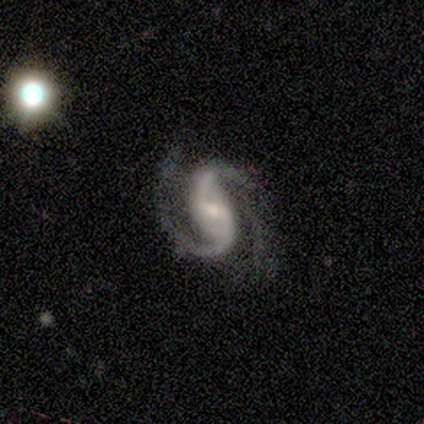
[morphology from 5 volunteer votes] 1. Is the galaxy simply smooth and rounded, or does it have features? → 100% featured or disk, 0% smooth, 0% star or artifact.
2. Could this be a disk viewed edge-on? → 100% no, 0% yes.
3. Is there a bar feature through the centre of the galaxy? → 40% strong (tied), 40% weak (tied), 20% no.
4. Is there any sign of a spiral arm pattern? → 100% yes, 0% no.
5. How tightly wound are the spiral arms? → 60% medium, 20% tight, 20% loose.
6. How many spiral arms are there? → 100% 2, 0% 1, 0% 3, 0% 4, 0% more than 4, 0% can't tell.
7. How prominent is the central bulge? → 60% moderate, 40% small, 0% dominant, 0% large, 0% none.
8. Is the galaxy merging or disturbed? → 100% none, 0% minor disturbance, 0% major disturbance, 0% merger.